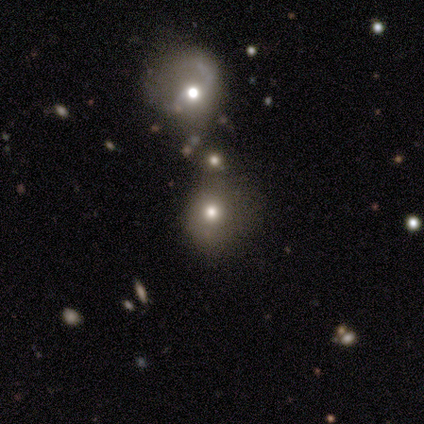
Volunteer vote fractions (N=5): Smooth or featured?
  - smooth: 80% *
  - featured or disk: 20%
  - star or artifact: 0%
How rounded?
  - round: 100% *
  - in between: 0%
  - cigar-shaped: 0%
Merging?
  - none: 80% *
  - merger: 20%
  - minor disturbance: 0%
  - major disturbance: 0%